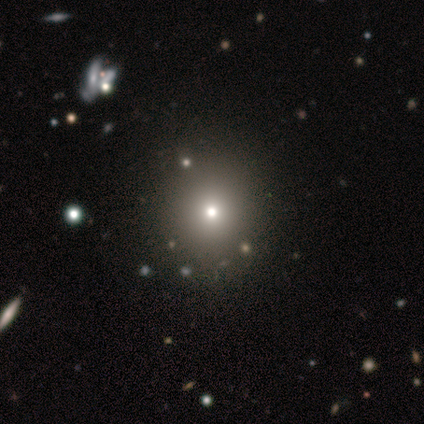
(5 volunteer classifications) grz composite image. It shows a smooth galaxy with no disk features (100%) that is round (80%). Merging: none (80%).